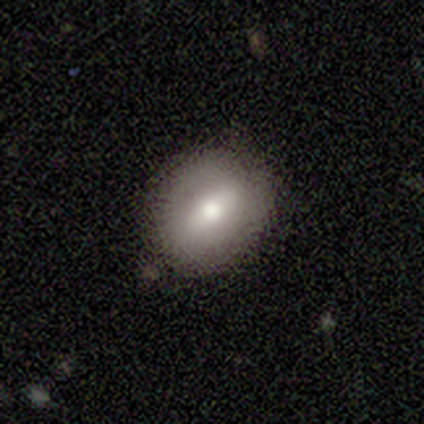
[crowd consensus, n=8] Morphology: type=smooth (62%); roundness=round (60%); merging=none (88%).